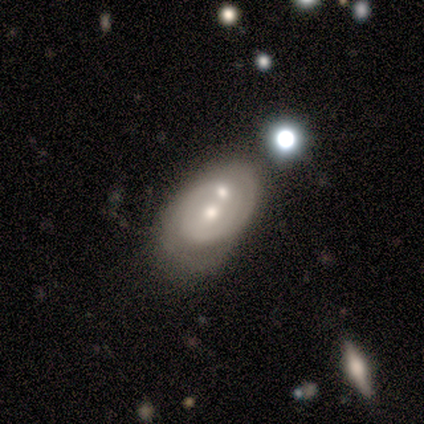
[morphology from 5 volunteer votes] This is likely a featured or disk galaxy (60%). It is clearly not viewed edge-on (100%). Bar: clearly no (100%). Spiral arm pattern: likely yes (67%). Spiral arm count: clearly 2 (100%). Spiral winding: possibly tight (50%, tied with medium). Central bulge: clearly moderate (100%). Merging: clearly merger (80%).